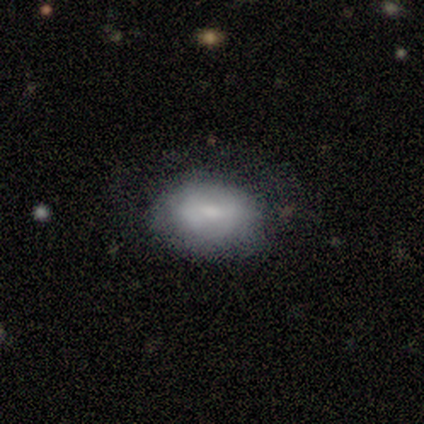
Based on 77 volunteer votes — This is likely a smooth galaxy (68%). How rounded: clearly in between (88%). Merging: marginally none (39%).